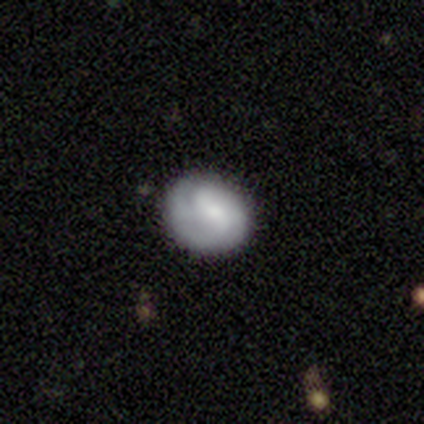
This appears to be a smooth galaxy with no disk features (50%) that is round (70%). Merging: none (68%).